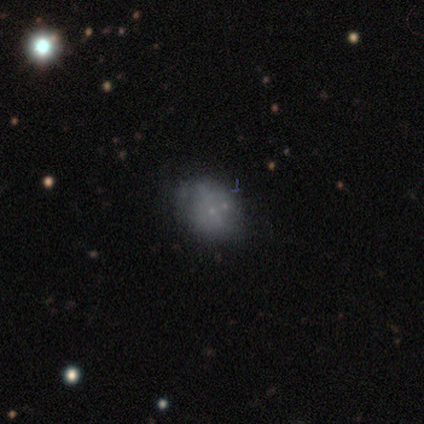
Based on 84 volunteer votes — Smooth or featured? 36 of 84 (43%) said smooth. How rounded? 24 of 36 (67%) said in between. Merging? 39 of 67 (58%) said none.